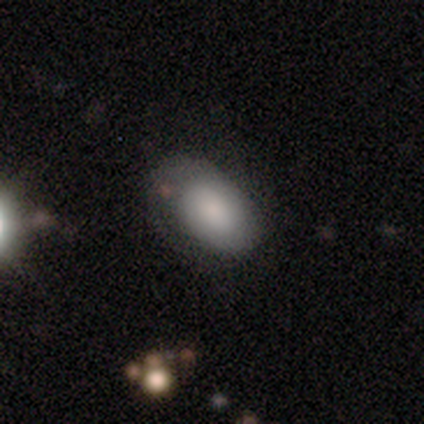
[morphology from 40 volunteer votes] Smooth or featured: smooth — 65% (featured or disk — 30%)
How rounded: in between — 92% (round — 8%)
Merging: none — 37% (minor disturbance — 21%)